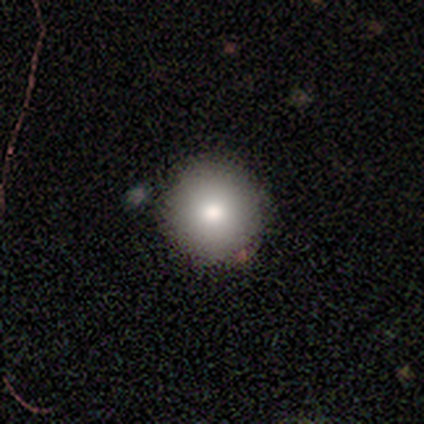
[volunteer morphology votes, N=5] type=smooth (100%); roundness=round (100%); merging=none (100%).